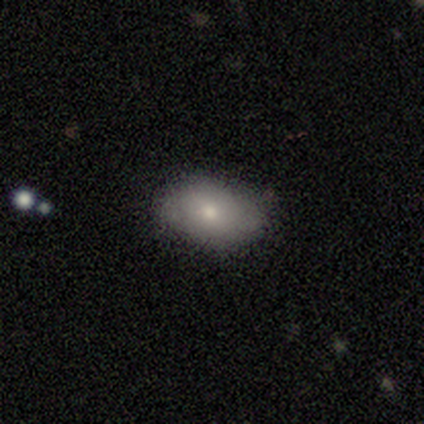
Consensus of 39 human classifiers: Overall: smooth (82%). How rounded: in between (94%). Merging: none (64%; minor disturbance 31%).